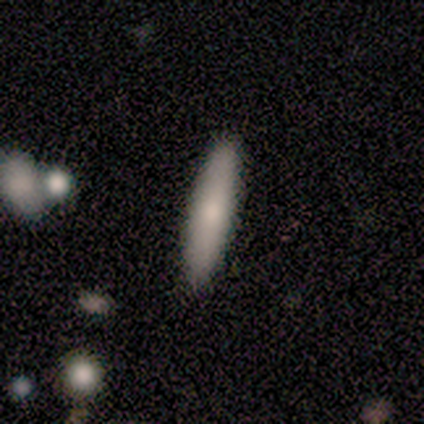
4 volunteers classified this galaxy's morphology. Overall: smooth (75%). How rounded: cigar-shaped (67%; in between 33%). Merging: none (100%).